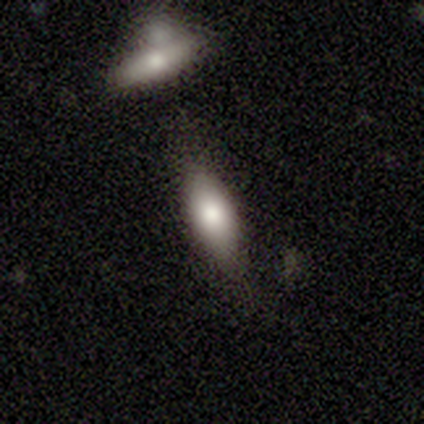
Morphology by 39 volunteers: smooth 69%, featured or disk 18%, star or artifact 13%. Down the decision tree: how rounded — in between (67%); merging — none (74%).